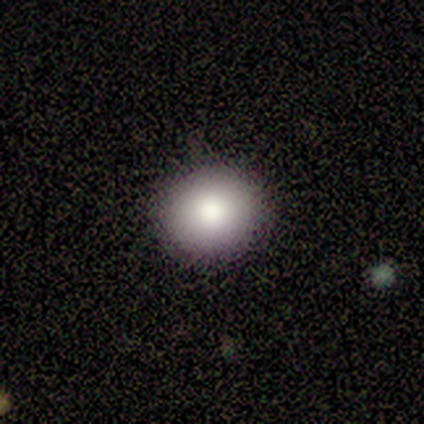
Morphology: type=smooth (80%); roundness=round (50%, tied with in between); merging=none (100%).